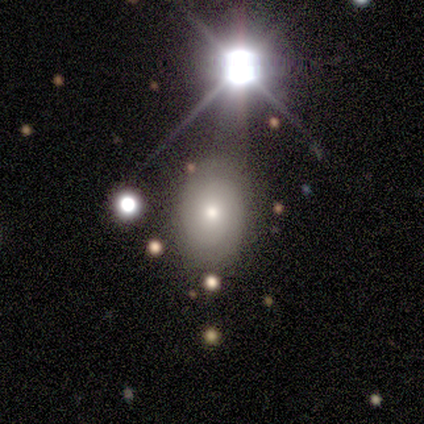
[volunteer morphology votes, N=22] type=smooth (41%); roundness=in between (100%); merging=none (94%).